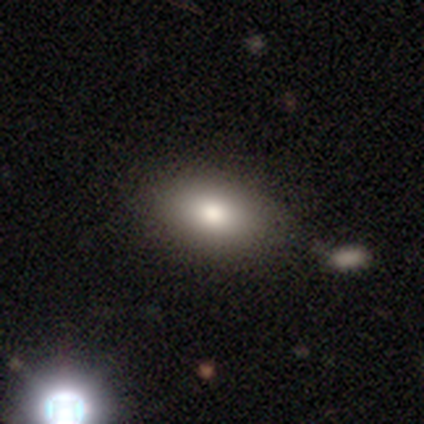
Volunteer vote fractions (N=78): Smooth or featured?
  - smooth: 77% *
  - featured or disk: 14%
  - star or artifact: 9%
How rounded?
  - in between: 92% *
  - round: 8%
  - cigar-shaped: 0%
Merging?
  - none: 56% *
  - merger: 8%
  - minor disturbance: 3%
  - major disturbance: 3%